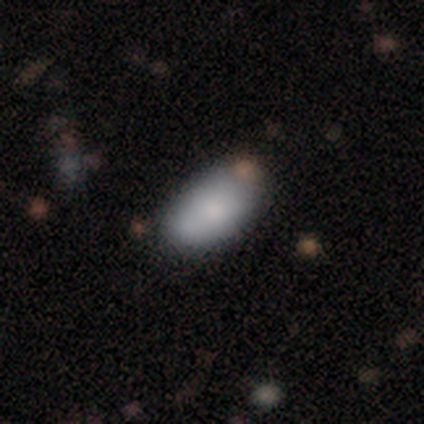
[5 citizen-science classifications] Smooth or featured?
  - smooth: 80% *
  - featured or disk: 20%
  - star or artifact: 0%
How rounded?
  - in between: 100% *
  - round: 0%
  - cigar-shaped: 0%
Merging?
  - none: 100% *
  - minor disturbance: 0%
  - major disturbance: 0%
  - merger: 0%